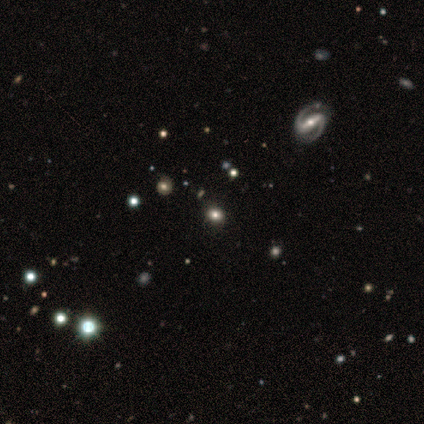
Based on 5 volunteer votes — Smooth or featured? 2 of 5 (40%, tied with star or artifact) said smooth. How rounded? 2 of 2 (100%) said round. Merging? 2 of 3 (67%) said none.